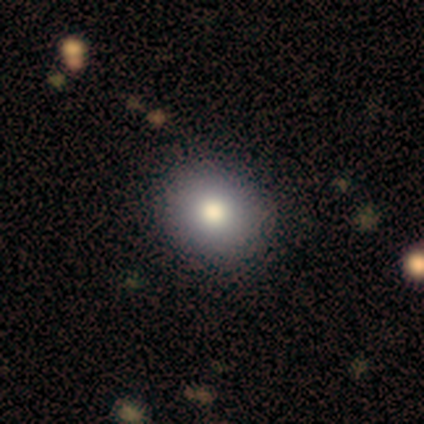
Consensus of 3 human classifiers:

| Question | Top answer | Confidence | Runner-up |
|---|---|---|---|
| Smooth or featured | smooth | 100% | — |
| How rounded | round | 100% | — |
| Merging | none | 67% | minor disturbance (33%) |